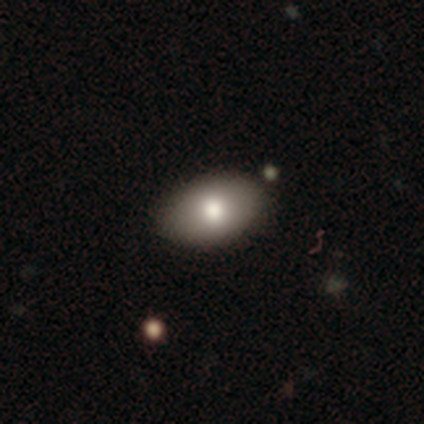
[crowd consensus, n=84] This appears to be a smooth galaxy with no disk features (74%) that is in between round and cigar-shaped (90%). Merging: none (83%).